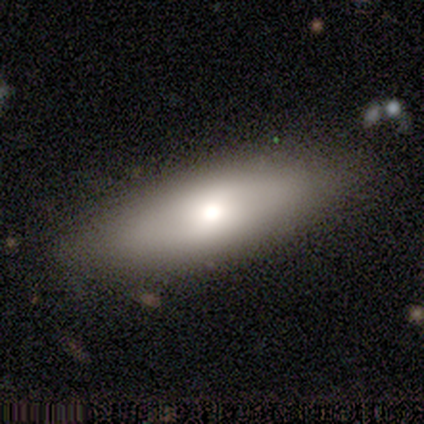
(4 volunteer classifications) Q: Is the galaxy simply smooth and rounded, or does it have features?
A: smooth — 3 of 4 (75%).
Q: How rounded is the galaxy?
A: in between — 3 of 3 (100%).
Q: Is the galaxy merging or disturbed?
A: none — 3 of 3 (100%).